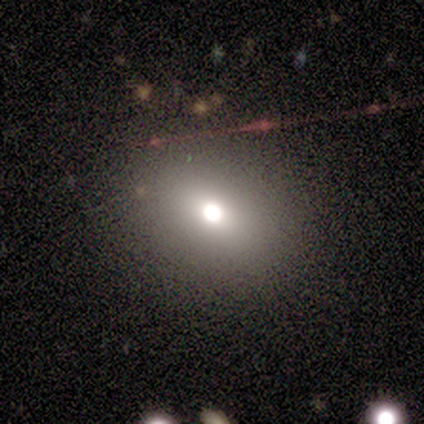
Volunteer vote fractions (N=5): smooth 60%, featured or disk 40%, star or artifact 0%. Down the decision tree: how rounded — in between (67%); merging — none (100%).